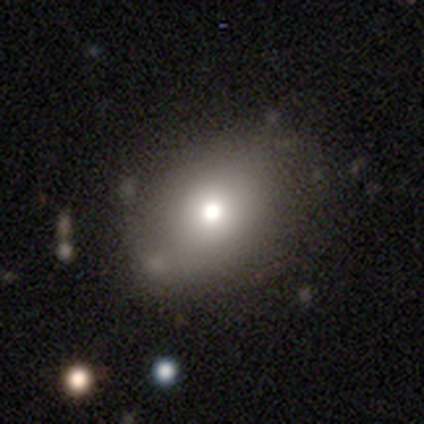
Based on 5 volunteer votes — Morphology: type=smooth (80%); roundness=in between (75%); merging=none (50%, tied with minor disturbance).